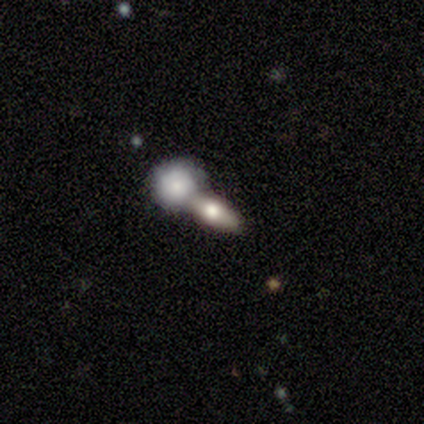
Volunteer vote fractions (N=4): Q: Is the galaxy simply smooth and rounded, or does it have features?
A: smooth — 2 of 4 (50%).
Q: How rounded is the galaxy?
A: round — 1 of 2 (50%, tied with in between).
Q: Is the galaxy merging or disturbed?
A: merger — 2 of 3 (67%).